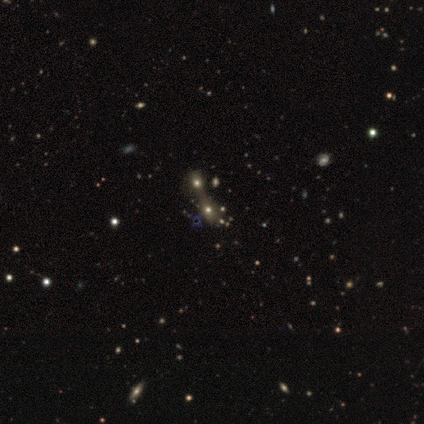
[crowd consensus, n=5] This is likely a star or artifact rather than a galaxy (60%).